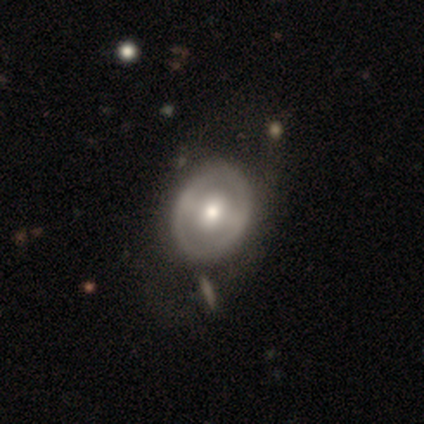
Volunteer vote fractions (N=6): Smooth or featured? smooth (50%, tied with featured or disk)
How rounded? in between (67%)
Merging? none (50%, tied with minor disturbance)